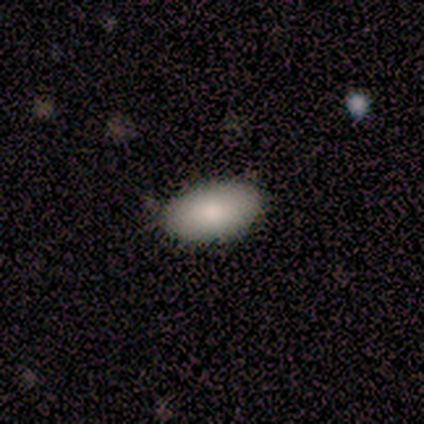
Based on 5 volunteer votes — Overall: smooth (100%). How rounded: in between (100%). Merging: none (80%).